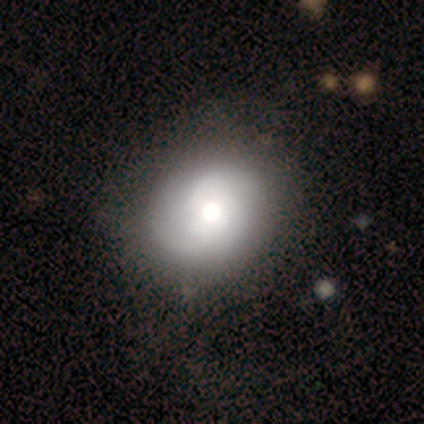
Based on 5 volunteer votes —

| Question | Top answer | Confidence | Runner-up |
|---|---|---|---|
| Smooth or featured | featured or disk | 80% | smooth (20%) |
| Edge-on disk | no | 100% | — |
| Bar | no | 100% | — |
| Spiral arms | yes | 75% | no (25%) |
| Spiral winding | tight | 33% | tied: medium (33%), loose (33%) |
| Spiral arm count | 3 | 100% | — |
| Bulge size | dominant | 50% | tied: large (50%) |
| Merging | minor disturbance | 60% | none (20%) |